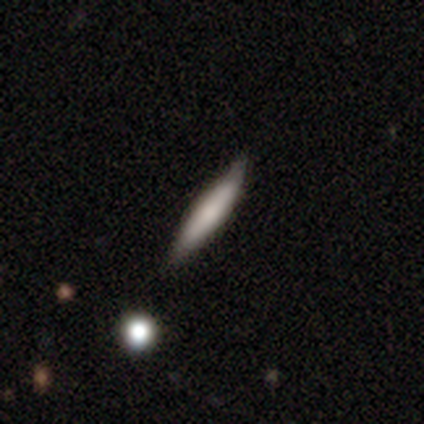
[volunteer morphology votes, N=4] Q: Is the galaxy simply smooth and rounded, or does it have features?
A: smooth — 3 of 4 (75%).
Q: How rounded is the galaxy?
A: cigar-shaped — 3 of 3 (100%).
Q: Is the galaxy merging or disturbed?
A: none — 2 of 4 (50%, tied with minor disturbance).